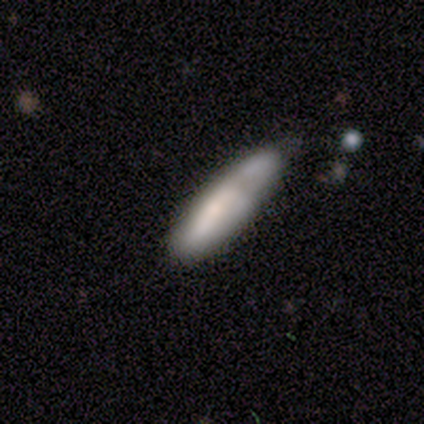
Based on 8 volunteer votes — Smooth or featured?
  - smooth: 75% *
  - featured or disk: 25%
  - star or artifact: 0%
How rounded?
  - in between: 50% * (tied)
  - cigar-shaped: 50% * (tied)
  - round: 0%
Merging?
  - none: 50% * (tied)
  - minor disturbance: 50% * (tied)
  - major disturbance: 0%
  - merger: 0%